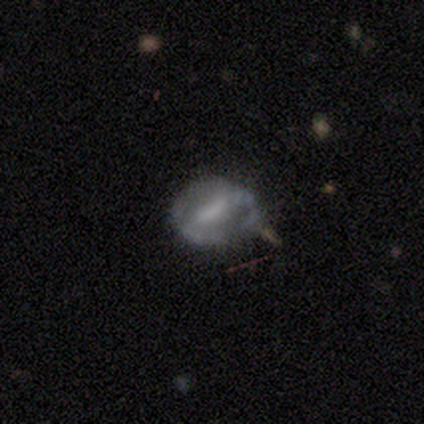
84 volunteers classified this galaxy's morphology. A featured or disk galaxy (69%) with a strong bar (46%), no spiral arms (69%) and a moderate central bulge (35%, tied with none).

Vote fractions:
- Smooth or featured? featured or disk: 69% / smooth: 24% / star or artifact: 7%
- Edge-on disk? no: 93% / yes: 7%
- Bar? strong: 46% / weak: 43% / no: 11%
- Spiral arms? no: 69% / yes: 31%
- Bulge size? moderate: 35% (tied) / none: 35% (tied) / small: 28% / large: 2% / dominant: 0%
- Merging? none: 56% / minor disturbance: 28% / major disturbance: 12% / merger: 4%